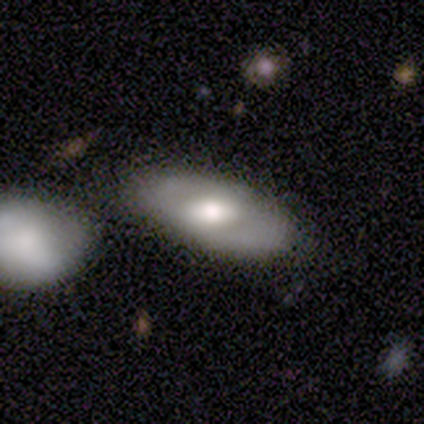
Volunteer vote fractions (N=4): Smooth or featured?
  - smooth: 75% *
  - featured or disk: 25%
  - star or artifact: 0%
How rounded?
  - in between: 67% *
  - cigar-shaped: 33%
  - round: 0%
Merging?
  - none: 100% *
  - minor disturbance: 0%
  - major disturbance: 0%
  - merger: 0%